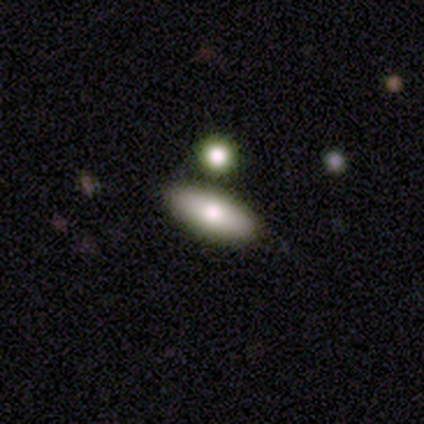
Smooth or featured?
  - smooth: 60% *
  - featured or disk: 20%
  - star or artifact: 20%
How rounded?
  - in between: 67% *
  - cigar-shaped: 33%
  - round: 0%
Merging?
  - none: 100% *
  - minor disturbance: 0%
  - major disturbance: 0%
  - merger: 0%